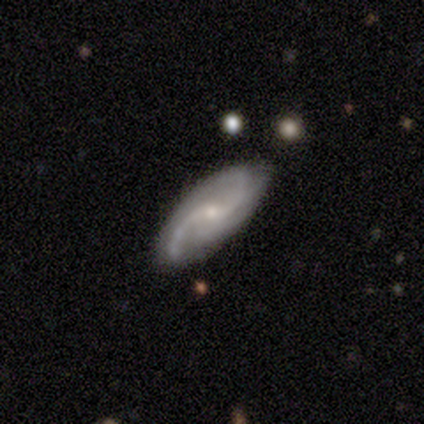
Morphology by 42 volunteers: smooth_or_featured: featured or disk (p=0.83) [alt: smooth p=0.12]
disk_edge_on: no (p=0.86) [alt: yes p=0.14]
bar: no (p=0.60) [alt: weak p=0.33]
has_spiral_arms: yes (p=0.97) [alt: no p=0.03]
spiral_winding: medium (p=0.48) [alt: loose p=0.41]
spiral_arm_count: 2 (p=0.59) [alt: 3 p=0.17]
bulge_size: small (p=0.63) [alt: moderate p=0.33]
merging: none (p=0.72) [alt: minor disturbance p=0.20]